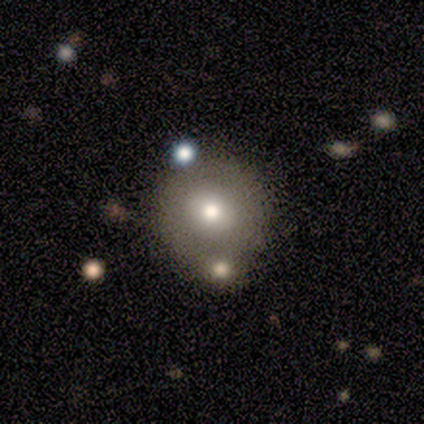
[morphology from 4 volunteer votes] smooth-or-featured: featured or disk: 50% | smooth: 25% | star or artifact: 25%
  disk-edge-on: no: 100% | yes: 0%
    bar: no: 100% | strong: 0% | weak: 0%
    has-spiral-arms: no: 100% | yes: 0%
    bulge-size: moderate: 100% | dominant: 0% | large: 0% | small: 0% | none: 0%
  merging: none: 33% (tied) | minor disturbance: 33% (tied) | merger: 33% (tied) | major disturbance: 0%